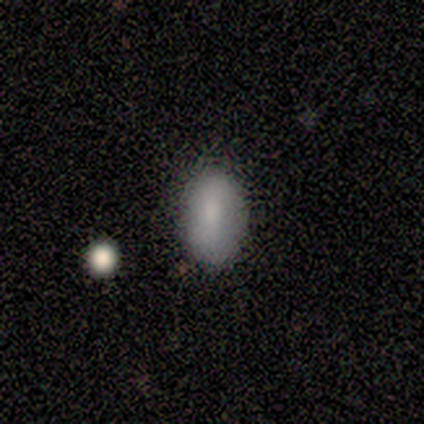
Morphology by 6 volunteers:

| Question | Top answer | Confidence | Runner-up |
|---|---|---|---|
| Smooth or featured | smooth | 83% | featured or disk (17%) |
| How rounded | in between | 60% | round (20%) |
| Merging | none | 83% | minor disturbance (17%) |